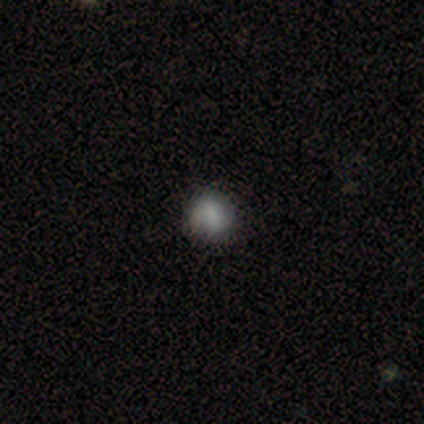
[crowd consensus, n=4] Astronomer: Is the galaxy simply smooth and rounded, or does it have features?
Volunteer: smooth — 75%.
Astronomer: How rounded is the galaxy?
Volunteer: round — 67%.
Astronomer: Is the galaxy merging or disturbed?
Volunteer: minor disturbance — 67%.